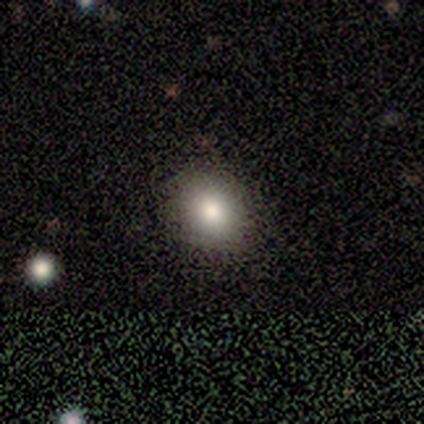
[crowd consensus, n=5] A smooth galaxy with no disk features (100%) that is round (80%).

Vote fractions:
- Smooth or featured? smooth: 100% / featured or disk: 0% / star or artifact: 0%
- How rounded? round: 80% / in between: 20% / cigar-shaped: 0%
- Merging? none: 80% / minor disturbance: 20% / major disturbance: 0% / merger: 0%